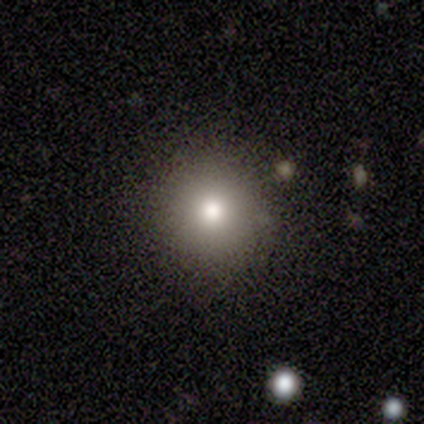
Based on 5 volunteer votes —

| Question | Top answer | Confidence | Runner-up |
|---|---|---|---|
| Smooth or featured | smooth | 80% | featured or disk (20%) |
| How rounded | round | 100% | — |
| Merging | none | 100% | — |